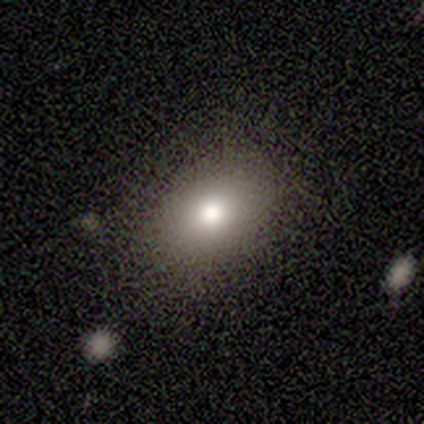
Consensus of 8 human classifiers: Volunteers were most divided on "smooth or featured": smooth: 75%, featured or disk: 25%, star or artifact: 0%. More confident: how rounded — in between (83%); merging — none (75%).